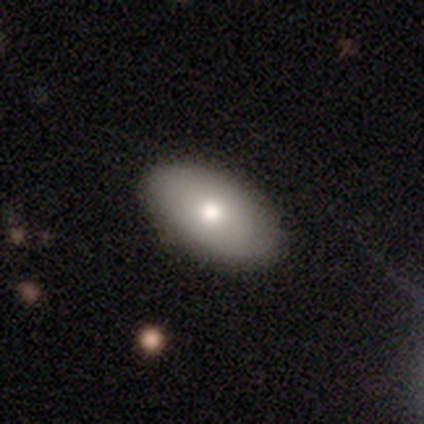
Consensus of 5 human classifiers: smooth_or_featured: featured or disk (p=0.60) [alt: smooth p=0.40]
disk_edge_on: no (p=1.00)
bar: no (p=1.00)
has_spiral_arms: no (p=0.67) [alt: yes p=0.33]
bulge_size: moderate (p=1.00)
merging: none (p=0.60) [alt: minor disturbance p=0.40]